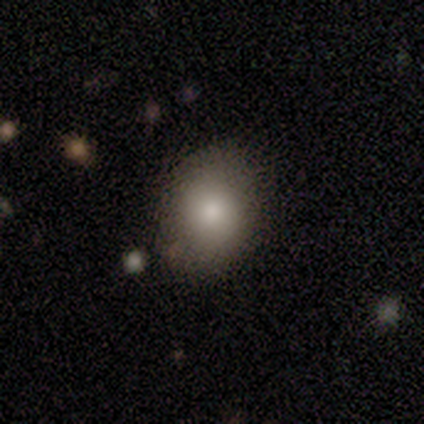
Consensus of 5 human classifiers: This is clearly a smooth galaxy (80%). How rounded: clearly in between (100%). Merging: likely none (60%).